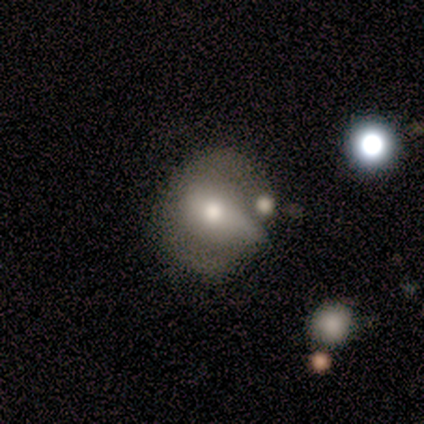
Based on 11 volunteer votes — Smooth or featured: smooth — 73% (featured or disk — 18%)
How rounded: in between — 62% (round — 38%)
Merging: minor disturbance — 40% (none — 30%)